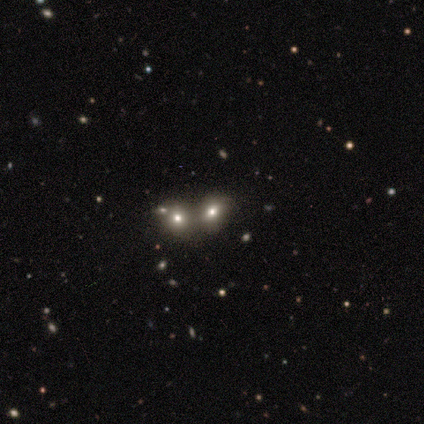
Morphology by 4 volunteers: Smooth or featured? smooth (50%, tied with star or artifact)
How rounded? round (50%, tied with in between)
Merging? none (50%, tied with merger)